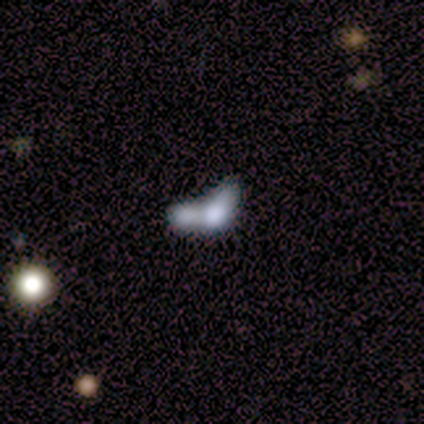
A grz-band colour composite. It shows a smooth galaxy with no disk features (50%, tied with featured or disk) that is in between round and cigar-shaped (100%). Merging: merger (75%).